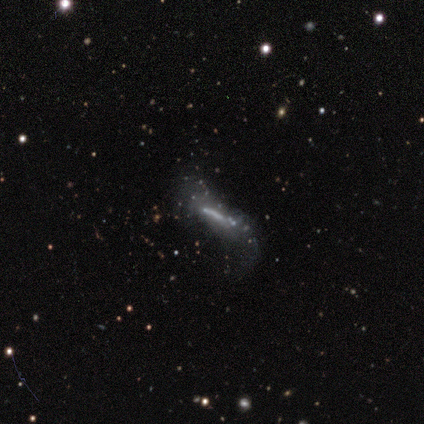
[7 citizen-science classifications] smooth_or_featured: smooth (p=0.43) [tied with: star or artifact p=0.43]
how_rounded: cigar-shaped (p=1.00)
merging: none (p=0.25) [tied with: minor disturbance p=0.25, major disturbance p=0.25, merger p=0.25]